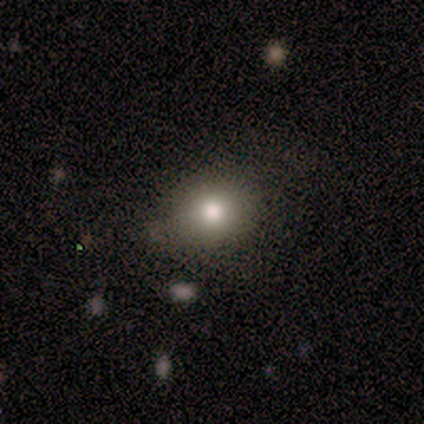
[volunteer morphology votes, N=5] A smooth galaxy with no disk features (100%) that is round (80%).

Vote fractions:
- Smooth or featured? smooth: 100% / featured or disk: 0% / star or artifact: 0%
- How rounded? round: 80% / in between: 20% / cigar-shaped: 0%
- Merging? minor disturbance: 60% / none: 40% / major disturbance: 0% / merger: 0%